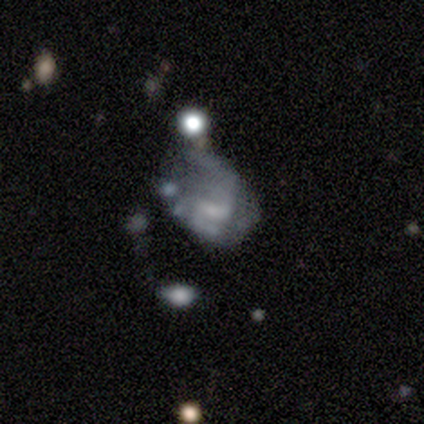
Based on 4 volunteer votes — Morphology: type=smooth (50%, tied with featured or disk); roundness=in between (100%); merging=major disturbance (50%).